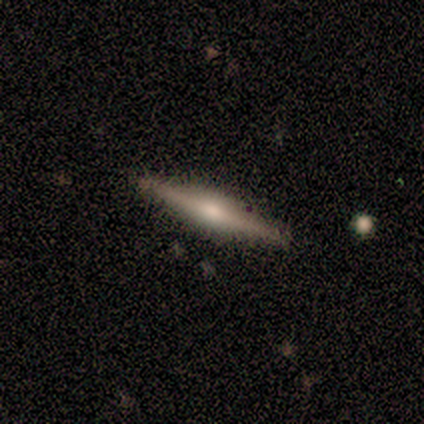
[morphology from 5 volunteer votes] This is clearly a featured or disk galaxy (80%). It is clearly viewed edge-on (100%). Edge-on bulge: clearly rounded (100%). Merging: clearly none (80%).